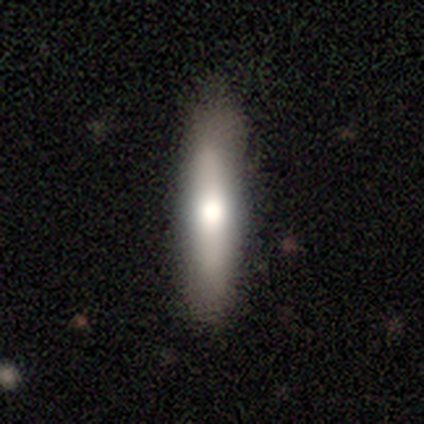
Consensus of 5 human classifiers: A featured or disk galaxy (60%) viewed edge-on (100%) with a rounded central bulge (100%).

Vote fractions:
- Smooth or featured? featured or disk: 60% / smooth: 40% / star or artifact: 0%
- Edge-on disk? yes: 100% / no: 0%
- Edge-on bulge? rounded: 100% / boxy: 0% / none: 0%
- Merging? none: 60% / minor disturbance: 40% / major disturbance: 0% / merger: 0%